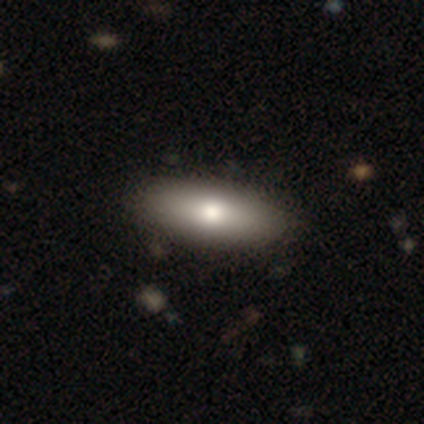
Smooth or featured? smooth (79%)
How rounded? in between (66%)
Merging? none (94%)